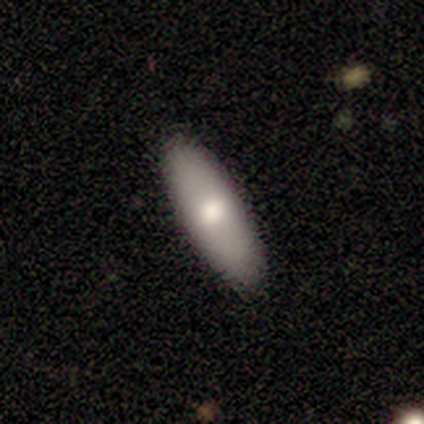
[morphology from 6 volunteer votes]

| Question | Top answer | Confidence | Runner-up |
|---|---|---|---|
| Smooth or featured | smooth | 83% | star or artifact (17%) |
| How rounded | in between | 60% | cigar-shaped (40%) |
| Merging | none | 80% | minor disturbance (20%) |